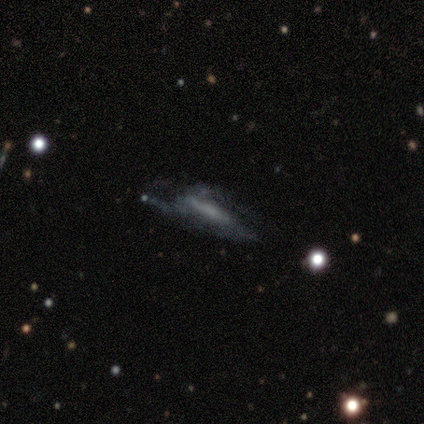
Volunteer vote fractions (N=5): Smooth or featured?
  - featured or disk: 80% *
  - star or artifact: 20%
  - smooth: 0%
Edge-on disk?
  - no: 100% *
  - yes: 0%
Bar?
  - no: 75% *
  - weak: 25%
  - strong: 0%
Spiral arms?
  - yes: 50% * (tied)
  - no: 50% * (tied)
Spiral winding?
  - medium: 100% *
  - tight: 0%
  - loose: 0%
Spiral arm count?
  - can't tell: 100% *
  - 1: 0%
  - 2: 0%
  - 3: 0%
  - 4: 0%
  - more than 4: 0%
Bulge size?
  - none: 50% *
  - moderate: 25%
  - small: 25%
  - dominant: 0%
  - large: 0%
Merging?
  - none: 50% *
  - minor disturbance: 25%
  - major disturbance: 25%
  - merger: 0%